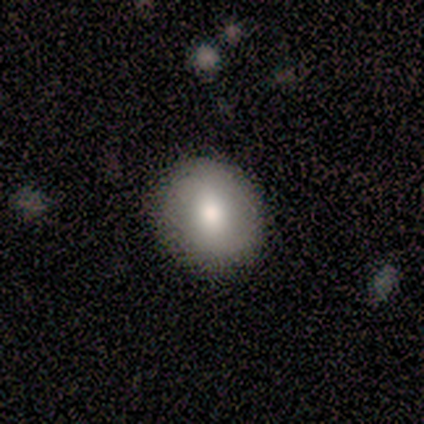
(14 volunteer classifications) Smooth or featured?
  - smooth: 71% *
  - featured or disk: 21%
  - star or artifact: 7%
How rounded?
  - round: 80% *
  - in between: 20%
  - cigar-shaped: 0%
Merging?
  - none: 92% *
  - minor disturbance: 8%
  - major disturbance: 0%
  - merger: 0%